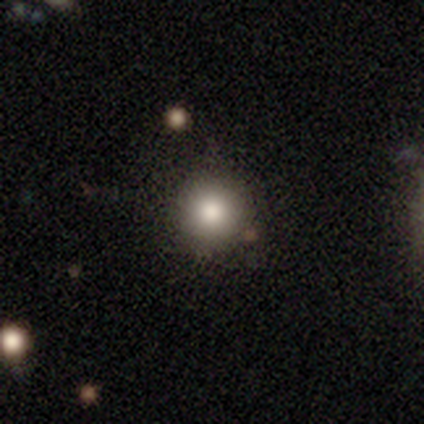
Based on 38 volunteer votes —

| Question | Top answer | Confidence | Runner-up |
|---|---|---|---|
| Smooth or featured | smooth | 89% | featured or disk (5%) |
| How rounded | round | 91% | in between (6%) |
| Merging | none | 94% | major disturbance (6%) |